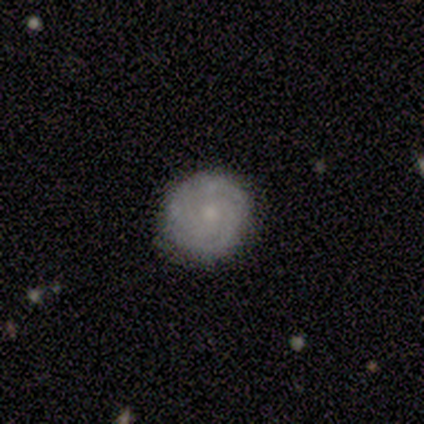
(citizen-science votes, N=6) A featured or disk galaxy (83%) with no bar (100%), 3 (50%, tied with can't tell) tight (75%) spiral arms (80%) and a small central bulge (80%).

Vote fractions:
- Smooth or featured? featured or disk: 83% / smooth: 17% / star or artifact: 0%
- Edge-on disk? no: 100% / yes: 0%
- Bar? no: 100% / strong: 0% / weak: 0%
- Spiral arms? yes: 80% / no: 20%
- Spiral winding? tight: 75% / medium: 25% / loose: 0%
- Spiral arm count? 3: 50% (tied) / can't tell: 50% (tied) / 1: 0% / 2: 0% / 4: 0% / more than 4: 0%
- Bulge size? small: 80% / moderate: 20% / dominant: 0% / large: 0% / none: 0%
- Merging? none: 67% / minor disturbance: 33% / major disturbance: 0% / merger: 0%